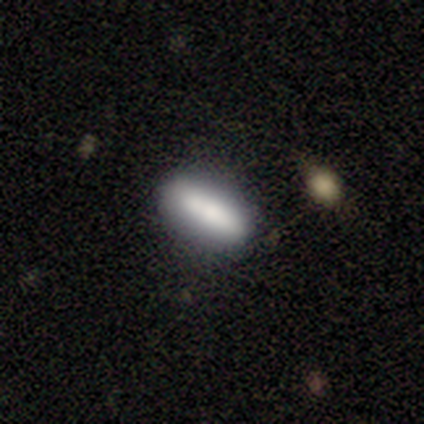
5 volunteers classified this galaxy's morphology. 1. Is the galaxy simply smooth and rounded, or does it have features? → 100% smooth, 0% featured or disk, 0% star or artifact.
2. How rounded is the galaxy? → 60% cigar-shaped, 40% in between, 0% round.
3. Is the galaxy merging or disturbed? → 80% none, 20% minor disturbance, 0% major disturbance, 0% merger.